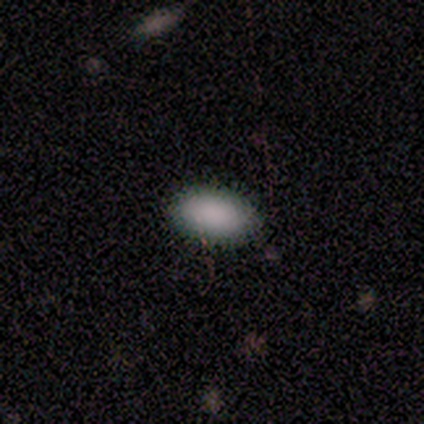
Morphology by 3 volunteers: smooth 100%, featured or disk 0%, star or artifact 0%. Down the decision tree: how rounded — in between (100%); merging — none (100%).